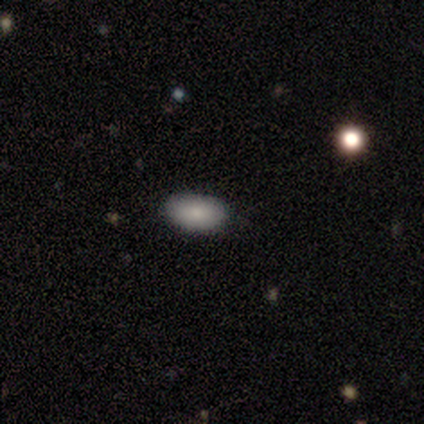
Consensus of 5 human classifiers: This is clearly a smooth galaxy (100%). How rounded: clearly in between (100%). Merging: clearly none (100%).